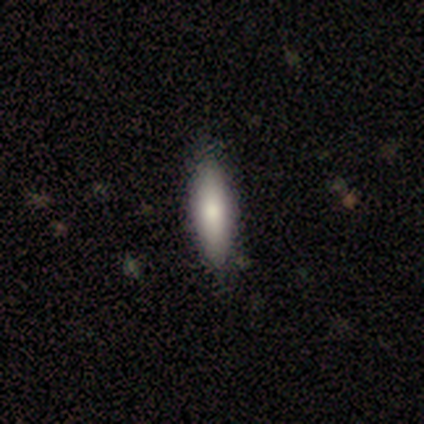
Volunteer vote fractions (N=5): Smooth or featured?
  - smooth: 80% *
  - featured or disk: 20%
  - star or artifact: 0%
How rounded?
  - in between: 100% *
  - round: 0%
  - cigar-shaped: 0%
Merging?
  - none: 80% *
  - minor disturbance: 20%
  - major disturbance: 0%
  - merger: 0%